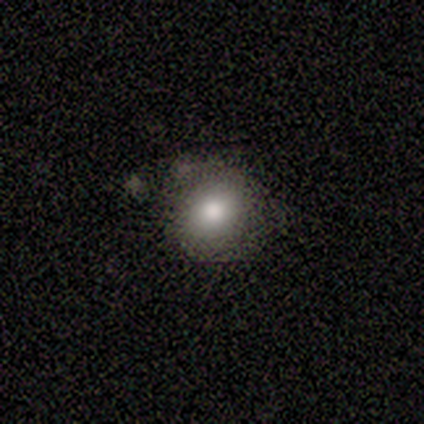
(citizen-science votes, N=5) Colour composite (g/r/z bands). It shows a smooth galaxy with no disk features (100%) that is round (60%). Merging: none (80%).